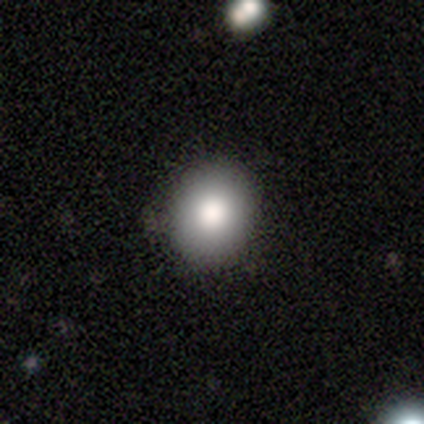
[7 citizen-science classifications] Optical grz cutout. It shows a smooth galaxy with no disk features (86%) that is round (50%, tied with in between). Merging: none (67%).